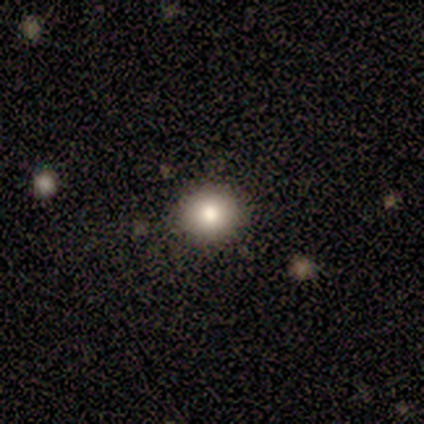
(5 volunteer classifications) A smooth galaxy with no disk features (60%) that is round (100%).

Vote fractions:
- Smooth or featured? smooth: 60% / star or artifact: 40% / featured or disk: 0%
- How rounded? round: 100% / in between: 0% / cigar-shaped: 0%
- Merging? none: 100% / minor disturbance: 0% / major disturbance: 0% / merger: 0%